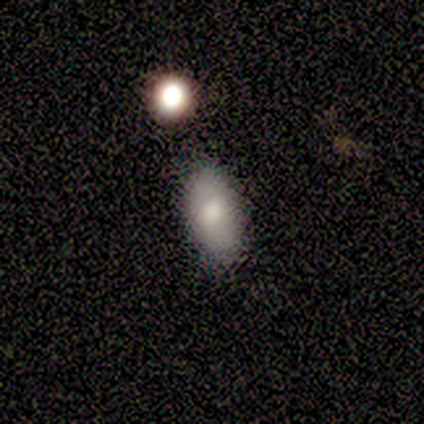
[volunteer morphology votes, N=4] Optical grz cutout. It shows a smooth galaxy with no disk features (100%) that is in between round and cigar-shaped (100%). Merging: none (100%).